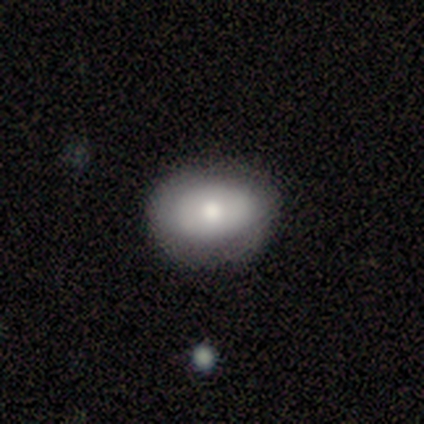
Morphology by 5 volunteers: This is likely a smooth galaxy (60%). How rounded: clearly in between (100%). Merging: likely none (60%).